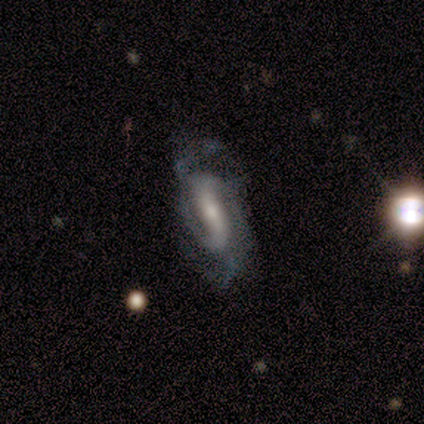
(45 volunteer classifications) Smooth or featured? featured or disk (87%)
Edge-on disk? no (90%)
Bar? strong (66%)
Spiral arms? yes (94%)
Spiral winding? medium (42%)
Spiral arm count? 2 (70%)
Bulge size? moderate (46%)
Merging? none (50%)